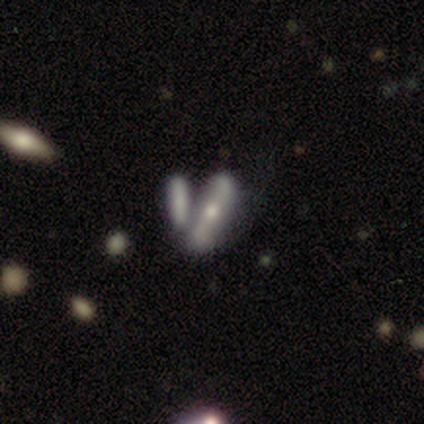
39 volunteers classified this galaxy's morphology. Smooth or featured? featured or disk (56%)
Edge-on disk? yes (59%)
Edge-on bulge? rounded (85%)
Merging? none (44%)